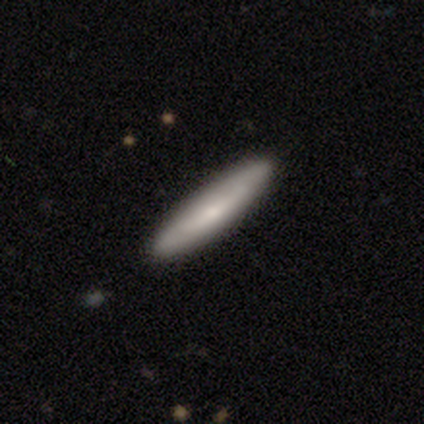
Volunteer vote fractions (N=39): Smooth or featured? 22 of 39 (56%) said smooth. How rounded? 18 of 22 (82%) said cigar-shaped. Merging? 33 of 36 (92%) said none.